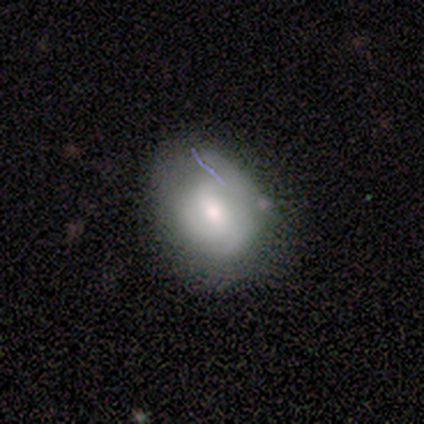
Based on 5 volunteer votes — Smooth or featured? smooth (60%)
How rounded? in between (67%)
Merging? none (80%)